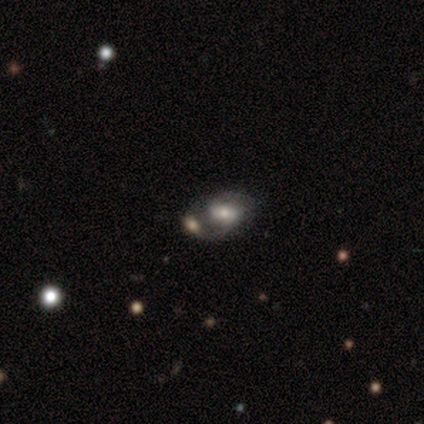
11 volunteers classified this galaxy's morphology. A smooth galaxy with no disk features (45%, tied with featured or disk) that is in between round and cigar-shaped (60%).

Vote fractions:
- Smooth or featured? smooth: 45% (tied) / featured or disk: 45% (tied) / star or artifact: 9%
- How rounded? in between: 60% / round: 40% / cigar-shaped: 0%
- Merging? merger: 40% / none: 30% / major disturbance: 20% / minor disturbance: 10%